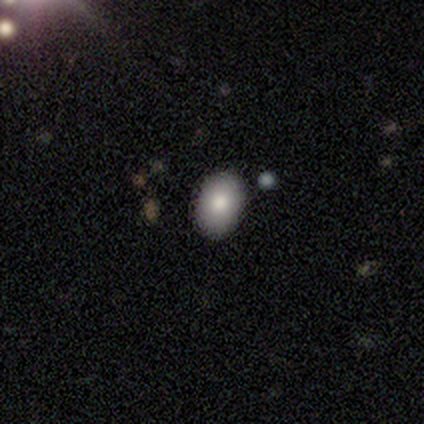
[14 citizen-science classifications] Overall: smooth (79%). How rounded: in between (73%). Merging: none (73%).